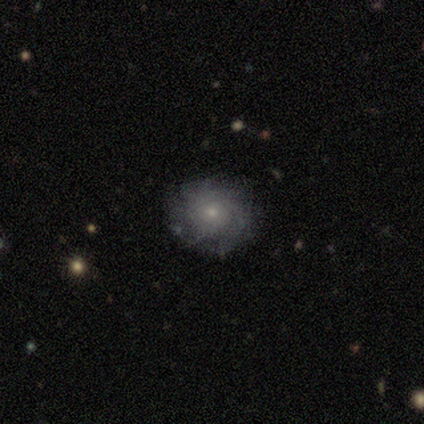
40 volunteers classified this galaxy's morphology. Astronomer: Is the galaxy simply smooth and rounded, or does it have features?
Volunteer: featured or disk — 57% (runner-up: smooth, 38%).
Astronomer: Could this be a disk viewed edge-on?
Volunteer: no — 100%.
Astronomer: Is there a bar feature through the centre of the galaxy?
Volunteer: no — 74%.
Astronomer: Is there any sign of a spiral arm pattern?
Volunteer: yes — 65%.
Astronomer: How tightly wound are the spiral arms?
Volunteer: tight — 47% (runner-up: loose, 33%).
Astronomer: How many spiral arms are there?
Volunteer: can't tell — 53% (runner-up: more than 4, 33%).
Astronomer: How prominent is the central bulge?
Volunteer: small — 91%.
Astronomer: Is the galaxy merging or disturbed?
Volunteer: none — 79%.